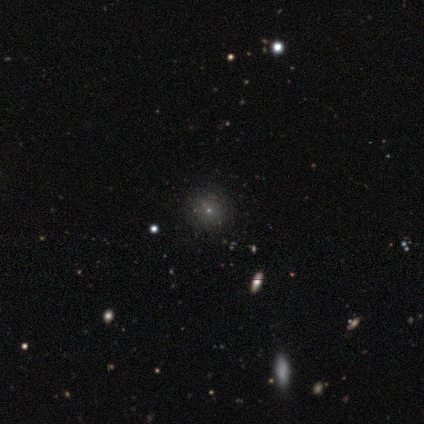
Overall: smooth (50%; featured or disk 25%). How rounded: round (100%). Merging: none (67%; major disturbance 33%).